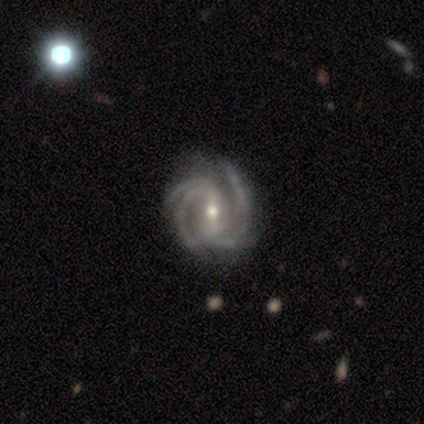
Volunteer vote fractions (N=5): Q: Smooth or featured?
A: featured or disk (80%); runner-up: smooth (20%)
Q: Edge-on disk?
A: no (100%)
Q: Bar?
A: weak (50%); runner-up: strong (25%)
Q: Spiral arms?
A: yes (100%)
Q: Spiral winding?
A: medium (75%); runner-up: tight (25%)
Q: Spiral arm count?
A: 3 (50%); tied with: 4 (50%)
Q: Bulge size?
A: moderate (50%); tied with: small (50%)
Q: Merging?
A: minor disturbance (60%); runner-up: none (40%)